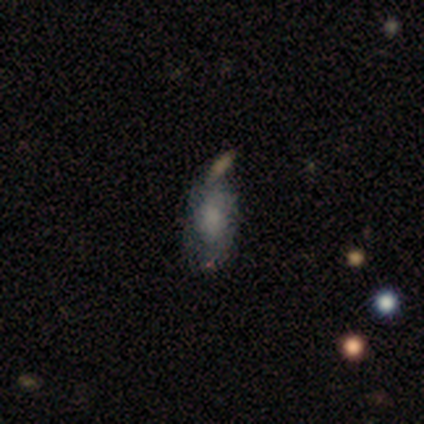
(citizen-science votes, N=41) smooth 49%, featured or disk 44%, star or artifact 7%. Down the decision tree: how rounded — in between (100%); merging — none (58%).